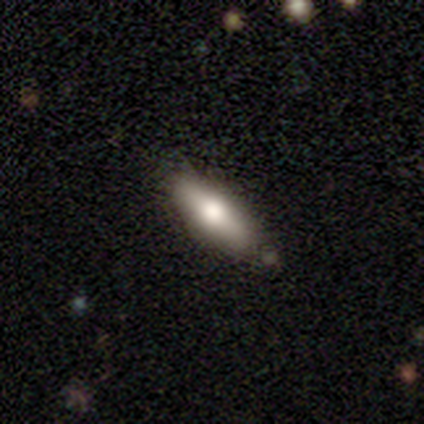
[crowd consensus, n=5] smooth 60%, featured or disk 40%, star or artifact 0%. Down the decision tree: how rounded — cigar-shaped (100%); merging — none (80%).